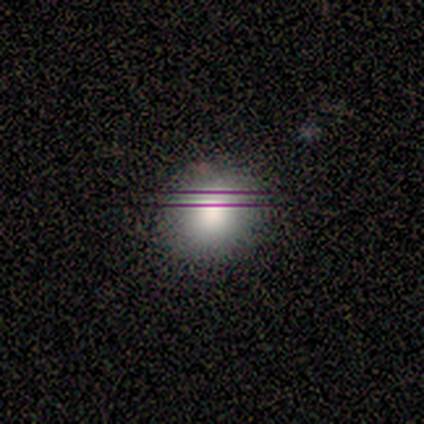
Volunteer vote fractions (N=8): A smooth galaxy with no disk features (88%) that is round (86%).

Vote fractions:
- Smooth or featured? smooth: 88% / featured or disk: 12% / star or artifact: 0%
- How rounded? round: 86% / in between: 14% / cigar-shaped: 0%
- Merging? none: 100% / minor disturbance: 0% / major disturbance: 0% / merger: 0%